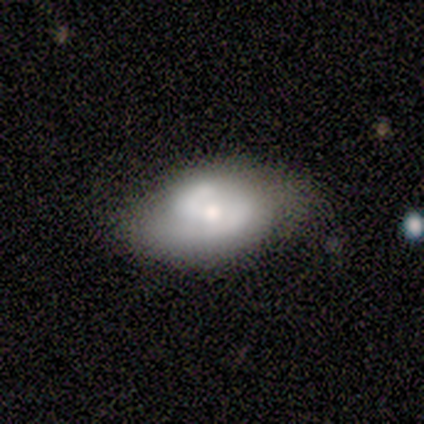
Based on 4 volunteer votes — Morphology: type=featured or disk (75%); edge-on=no (100%); bar=no (100%); spiral arms=yes (100%); winding=medium (67%); arm count=2 (100%); bulge=small (67%); merging=none (100%).